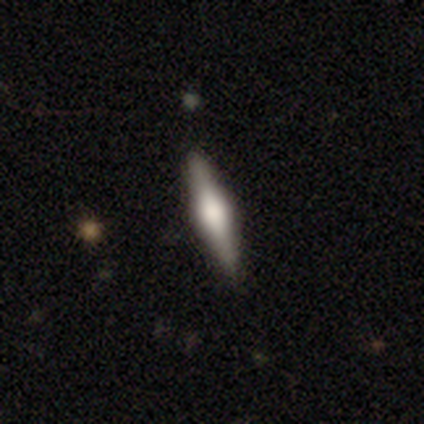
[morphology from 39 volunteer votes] Volunteers were most divided on "smooth or featured": featured or disk: 69%, smooth: 28%, star or artifact: 3%. More confident: merging — none (97%); edge-on disk — yes (96%); edge-on bulge — rounded (73%).